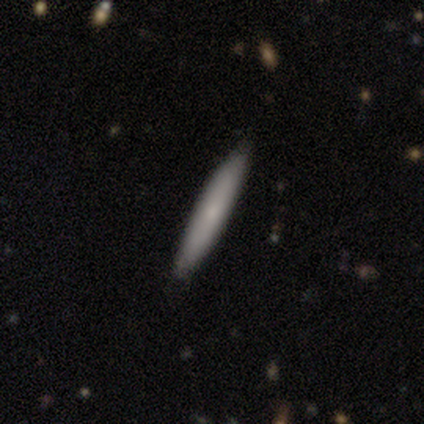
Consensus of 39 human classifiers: smooth 64%, featured or disk 33%, star or artifact 3%. Down the decision tree: how rounded — cigar-shaped (100%); merging — none (87%).